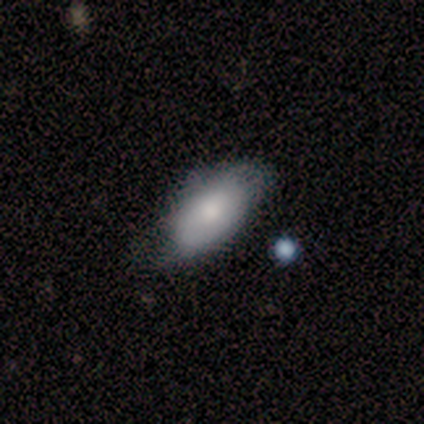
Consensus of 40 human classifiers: Volunteers were most divided on "merging": none: 58%, minor disturbance: 39%, major disturbance: 3%, merger: 0%. More confident: how rounded — in between (94%); smooth or featured — smooth (82%).